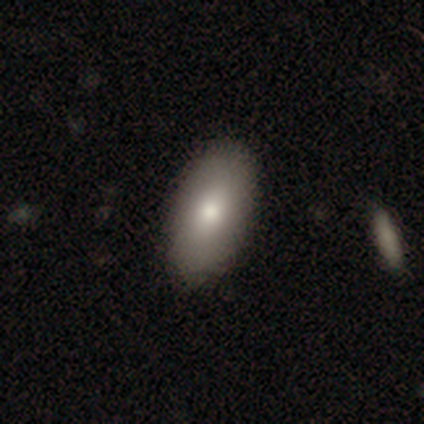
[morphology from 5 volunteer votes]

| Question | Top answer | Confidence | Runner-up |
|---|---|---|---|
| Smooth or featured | smooth | 100% | — |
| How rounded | in between | 100% | — |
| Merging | none | 80% | minor disturbance (20%) |